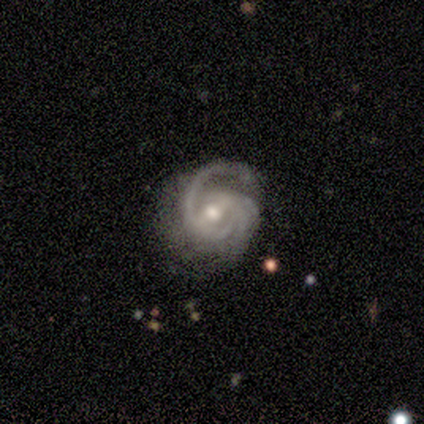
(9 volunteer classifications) Volunteers were most divided on "spiral arm count" (3-way tie): 1: 25%, 3: 25%, can't tell: 25%, 2: 12%, 4: 12%, more than 4: 0%. More confident: edge-on disk — no (100%); spiral arms — yes (100%); bulge size — moderate (100%); smooth or featured — featured or disk (89%); spiral winding — medium (62%); merging — none (62%); bar — strong (50%).